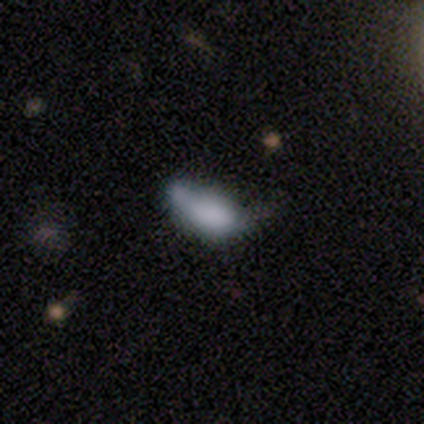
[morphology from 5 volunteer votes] Smooth or featured? 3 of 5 (60%) said smooth. How rounded? 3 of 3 (100%) said in between. Merging? 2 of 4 (50%, tied with major disturbance) said none.